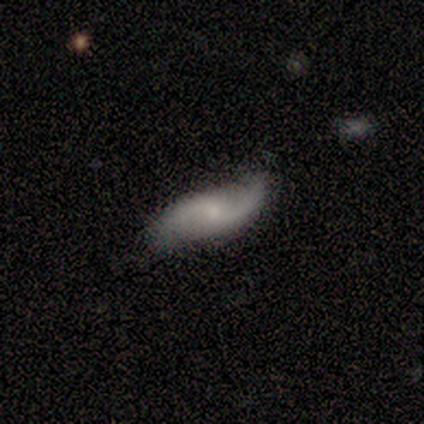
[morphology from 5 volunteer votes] Q: Smooth or featured?
A: featured or disk (80%); runner-up: smooth (20%)
Q: Edge-on disk?
A: no (100%)
Q: Bar?
A: weak (50%); runner-up: strong (25%)
Q: Spiral arms?
A: yes (75%); runner-up: no (25%)
Q: Spiral winding?
A: medium (67%); runner-up: loose (33%)
Q: Spiral arm count?
A: 2 (100%)
Q: Bulge size?
A: small (75%); runner-up: none (25%)
Q: Merging?
A: none (60%); runner-up: minor disturbance (40%)